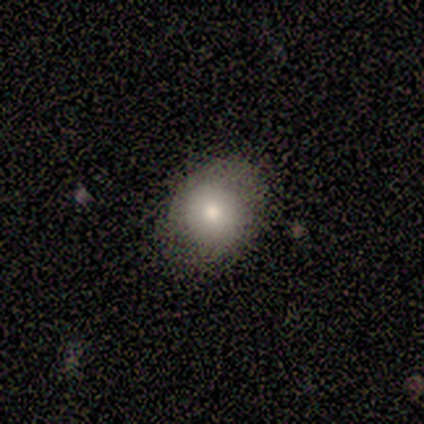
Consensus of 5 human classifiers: smooth 80%, star or artifact 20%, featured or disk 0%. Down the decision tree: how rounded — round (100%); merging — none (100%).